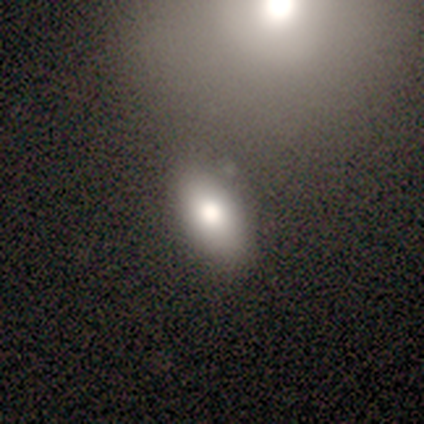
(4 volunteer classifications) Smooth or featured?
  - smooth: 75% *
  - featured or disk: 25%
  - star or artifact: 0%
How rounded?
  - in between: 100% *
  - round: 0%
  - cigar-shaped: 0%
Merging?
  - none: 75% *
  - merger: 25%
  - minor disturbance: 0%
  - major disturbance: 0%